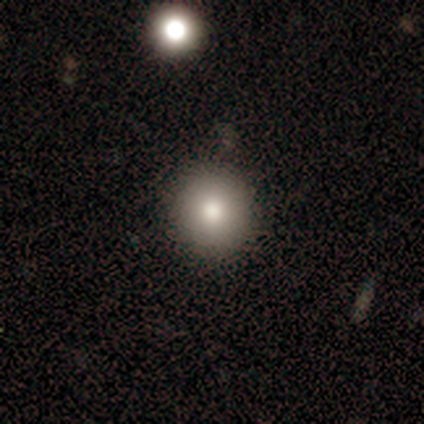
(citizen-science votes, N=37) Smooth or featured?
  - smooth: 81% *
  - featured or disk: 11%
  - star or artifact: 8%
How rounded?
  - round: 93% *
  - in between: 7%
  - cigar-shaped: 0%
Merging?
  - none: 94% *
  - minor disturbance: 6%
  - major disturbance: 0%
  - merger: 0%